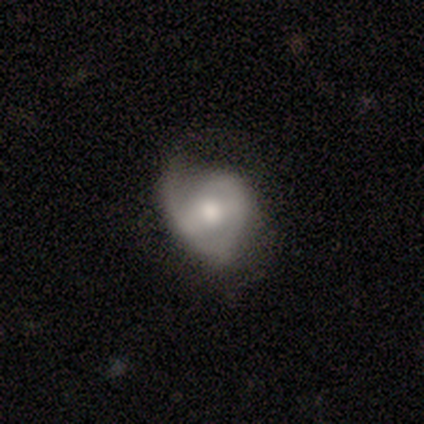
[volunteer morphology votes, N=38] Smooth or featured?
  - featured or disk: 55% *
  - smooth: 34%
  - star or artifact: 11%
Edge-on disk?
  - no: 100% *
  - yes: 0%
Bar?
  - weak: 43% *
  - no: 33%
  - strong: 24%
Spiral arms?
  - yes: 81% *
  - no: 19%
Spiral winding?
  - medium: 53% *
  - tight: 24%
  - loose: 24%
Spiral arm count?
  - 2: 53% *
  - 1: 29%
  - can't tell: 12%
  - 3: 6%
  - 4: 0%
  - more than 4: 0%
Bulge size?
  - moderate: 76% *
  - large: 19%
  - small: 5%
  - dominant: 0%
  - none: 0%
Merging?
  - none: 41% *
  - minor disturbance: 38%
  - major disturbance: 21%
  - merger: 0%